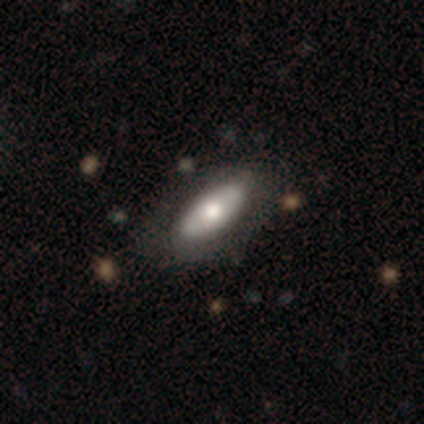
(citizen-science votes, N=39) smooth_or_featured: smooth (p=0.67) [alt: featured or disk p=0.31]
how_rounded: in between (p=0.65) [alt: cigar-shaped p=0.23]
merging: none (p=0.79) [alt: minor disturbance p=0.16]